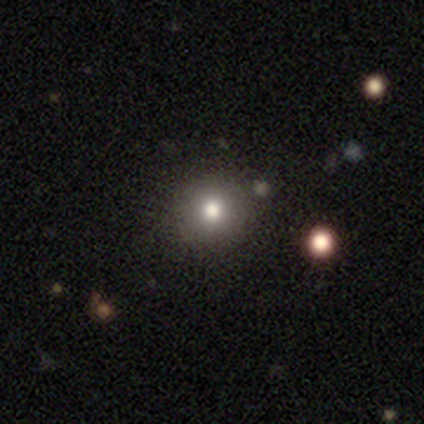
A smooth galaxy with no disk features (78%) that is round (71%). Merging: none (75%).